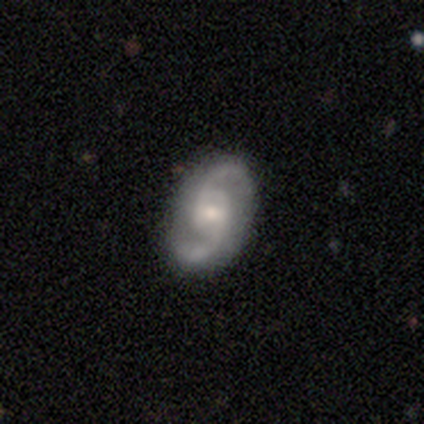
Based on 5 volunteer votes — Smooth or featured: featured or disk — 80% (smooth — 20%)
Edge-on disk: no — 100%
Bar: weak — 50% (tied with no — 50%)
Spiral arms: yes — 100%
Spiral winding: medium — 50% (tied with loose — 50%)
Spiral arm count: 2 — 75% (can't tell — 25%)
Bulge size: moderate — 75% (small — 25%)
Merging: none — 60% (minor disturbance — 20%)